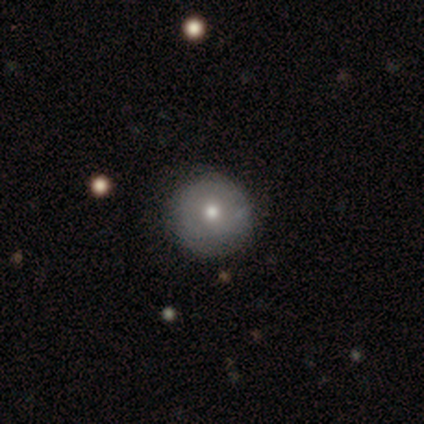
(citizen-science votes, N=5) Smooth or featured? featured or disk (60%)
Edge-on disk? no (100%)
Bar? no (100%)
Spiral arms? no (67%)
Bulge size? dominant (33%, tied with moderate and small)
Merging? none (80%)